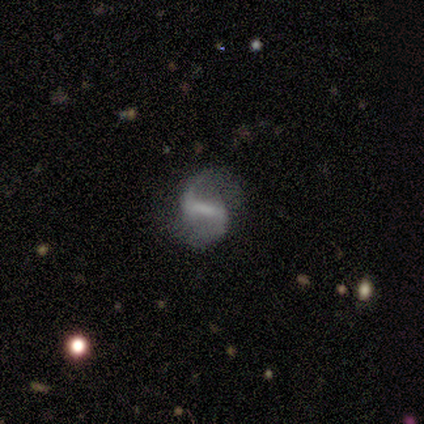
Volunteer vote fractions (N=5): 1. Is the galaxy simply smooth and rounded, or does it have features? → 100% featured or disk, 0% smooth, 0% star or artifact.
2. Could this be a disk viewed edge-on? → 100% no, 0% yes.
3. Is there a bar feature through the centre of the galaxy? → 40% strong (tied), 40% weak (tied), 20% no.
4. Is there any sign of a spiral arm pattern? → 60% yes, 40% no.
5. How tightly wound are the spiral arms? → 100% loose, 0% tight, 0% medium.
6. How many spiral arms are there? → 67% 2, 33% 1, 0% 3, 0% 4, 0% more than 4, 0% can't tell.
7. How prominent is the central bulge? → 80% none, 20% moderate, 0% dominant, 0% large, 0% small.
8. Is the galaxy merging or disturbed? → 60% none, 20% minor disturbance, 20% major disturbance, 0% merger.